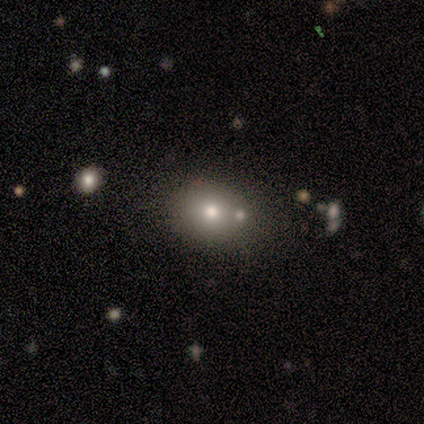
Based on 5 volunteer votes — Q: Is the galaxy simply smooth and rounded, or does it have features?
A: smooth — 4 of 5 (80%).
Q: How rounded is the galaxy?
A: round — 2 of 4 (50%).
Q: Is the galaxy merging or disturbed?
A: none — 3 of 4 (75%).